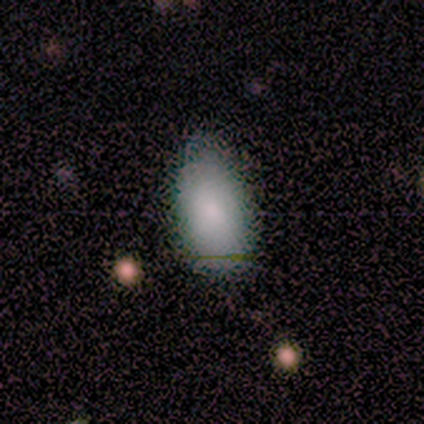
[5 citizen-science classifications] smooth-or-featured: smooth: 100% | featured or disk: 0% | star or artifact: 0%
  how-rounded: in between: 100% | round: 0% | cigar-shaped: 0%
  merging: none: 60% | minor disturbance: 40% | major disturbance: 0% | merger: 0%